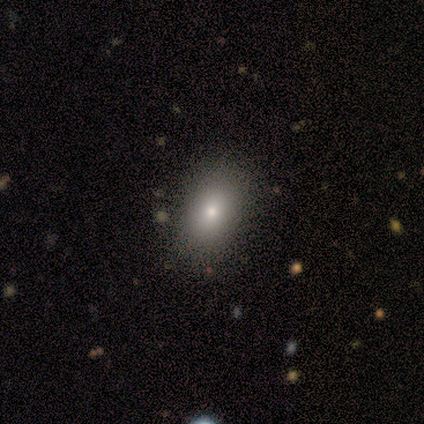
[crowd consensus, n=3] A smooth galaxy with no disk features (100%) that is in between round and cigar-shaped (100%).

Vote fractions:
- Smooth or featured? smooth: 100% / featured or disk: 0% / star or artifact: 0%
- How rounded? in between: 100% / round: 0% / cigar-shaped: 0%
- Merging? none: 100% / minor disturbance: 0% / major disturbance: 0% / merger: 0%